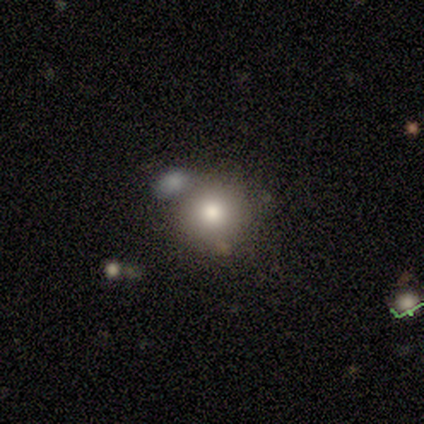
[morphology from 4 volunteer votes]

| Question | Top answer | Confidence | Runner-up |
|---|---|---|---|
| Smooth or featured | smooth | 75% | featured or disk (25%) |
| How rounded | round | 100% | — |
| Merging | none | 75% | merger (25%) |